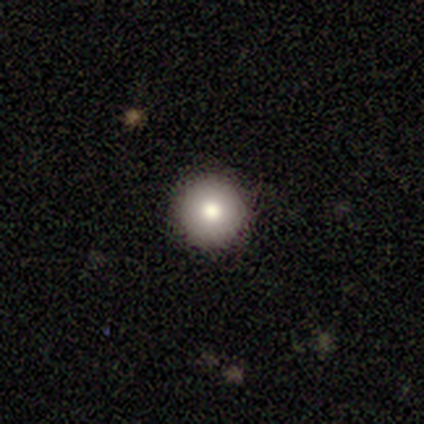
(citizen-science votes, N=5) Volunteers were most divided on "smooth or featured": smooth: 60%, featured or disk: 20%, star or artifact: 20%. More confident: how rounded — round (100%); merging — none (75%).